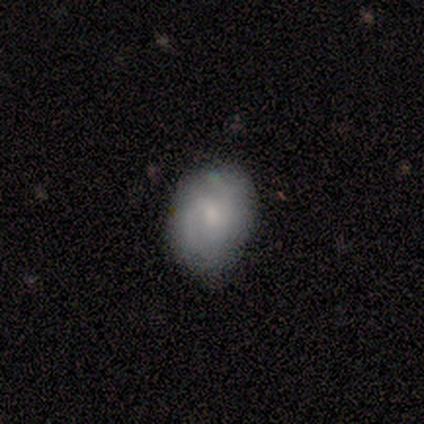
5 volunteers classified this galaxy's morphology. Smooth or featured? featured or disk (80%)
Edge-on disk? no (100%)
Bar? no (75%)
Spiral arms? yes (75%)
Spiral winding? tight (33%, tied with medium and loose)
Spiral arm count? 2 (67%)
Bulge size? small (75%)
Merging? none (60%)